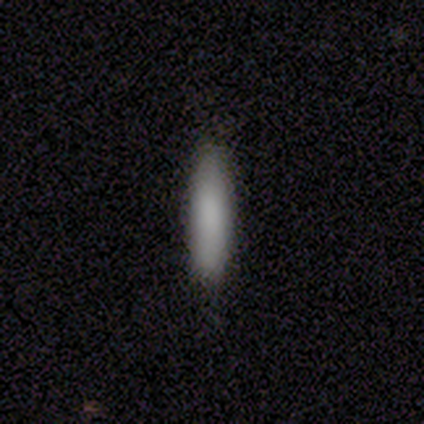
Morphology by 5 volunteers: A smooth galaxy with no disk features (80%) that is cigar-shaped (100%).

Vote fractions:
- Smooth or featured? smooth: 80% / star or artifact: 20% / featured or disk: 0%
- How rounded? cigar-shaped: 100% / round: 0% / in between: 0%
- Merging? none: 100% / minor disturbance: 0% / major disturbance: 0% / merger: 0%